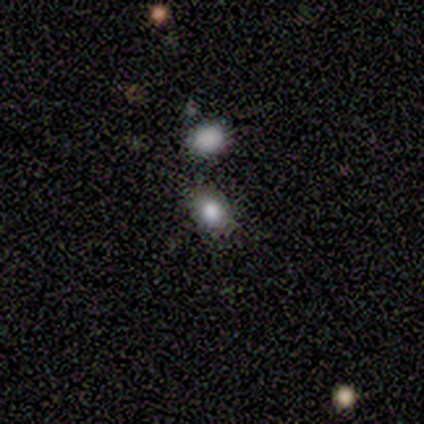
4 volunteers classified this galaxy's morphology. type=smooth (75%); roundness=in between (67%); merging=none (33%, tied with major disturbance and merger).